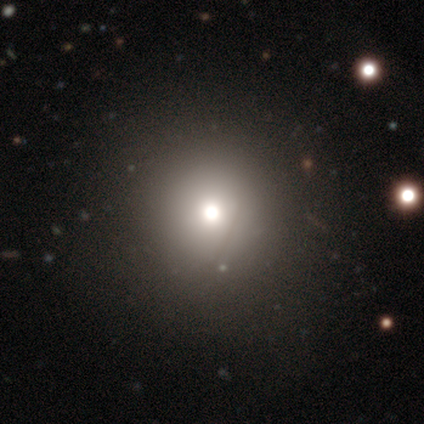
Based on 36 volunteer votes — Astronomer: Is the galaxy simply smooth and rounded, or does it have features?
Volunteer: smooth — 72%.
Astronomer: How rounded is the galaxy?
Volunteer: round — 100%.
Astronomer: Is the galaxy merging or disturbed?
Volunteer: none — 53%.